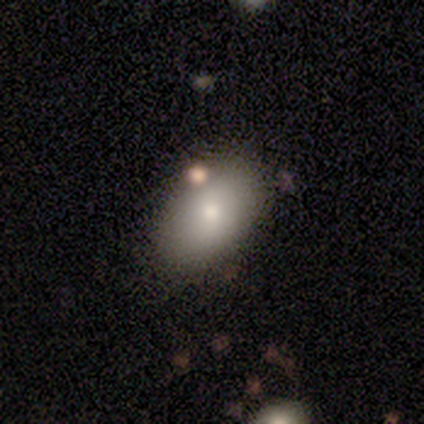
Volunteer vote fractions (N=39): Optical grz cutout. It shows a smooth galaxy with no disk features (90%) that is in between round and cigar-shaped (89%). Merging: none (46%).